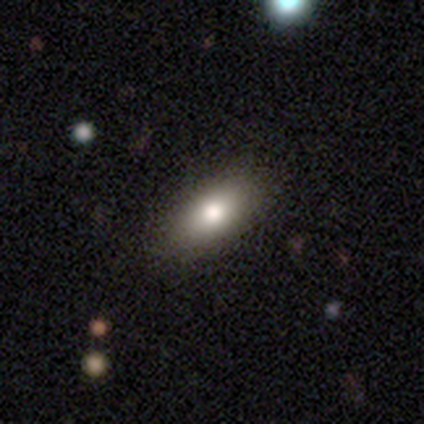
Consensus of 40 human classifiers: Volunteers were most divided on "smooth or featured": smooth: 65%, featured or disk: 28%, star or artifact: 8%. More confident: how rounded — in between (88%); merging — none (65%).